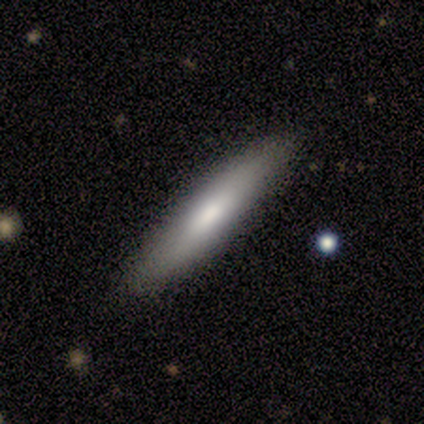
This appears to be a smooth galaxy with no disk features (100%) that is cigar-shaped (100%). Merging: none (100%).